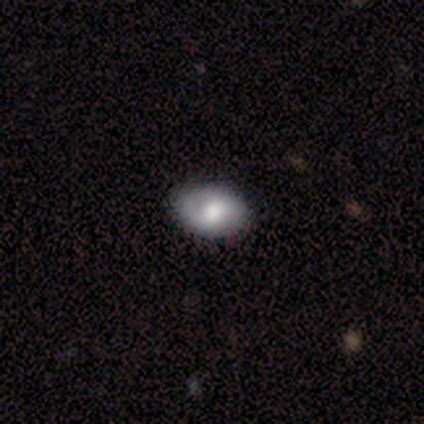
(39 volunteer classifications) Smooth or featured: smooth — 51% (featured or disk — 38%)
How rounded: in between — 90% (round — 10%)
Merging: none — 54% (minor disturbance — 11%)